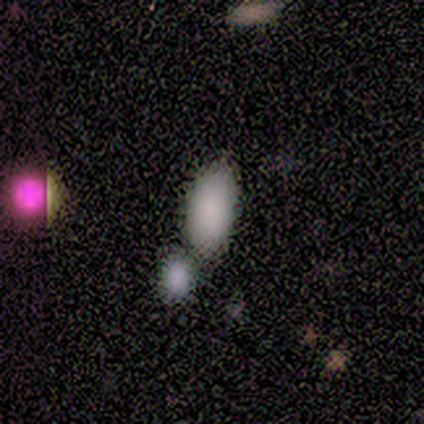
This is clearly a smooth galaxy (80%). How rounded: clearly in between (100%). Merging: possibly merger (50%).